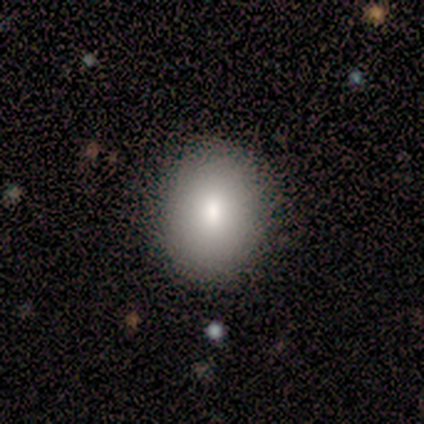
A smooth galaxy with no disk features (80%) that is round (75%). Merging: none (100%).